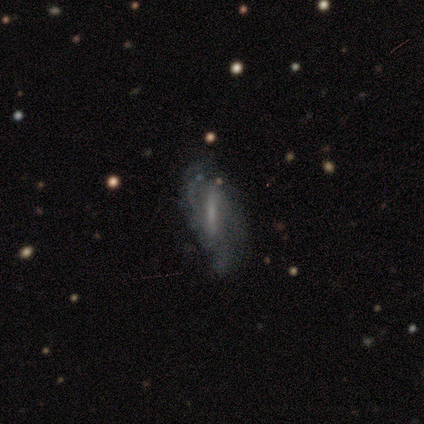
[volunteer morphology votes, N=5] Q: Smooth or featured?
A: featured or disk (80%); runner-up: smooth (20%)
Q: Edge-on disk?
A: no (75%); runner-up: yes (25%)
Q: Bar?
A: strong (67%); runner-up: weak (33%)
Q: Spiral arms?
A: yes (100%)
Q: Spiral winding?
A: tight (67%); runner-up: loose (33%)
Q: Spiral arm count?
A: 2 (67%); runner-up: can't tell (33%)
Q: Bulge size?
A: small (67%); runner-up: moderate (33%)
Q: Merging?
A: none (80%); runner-up: major disturbance (20%)